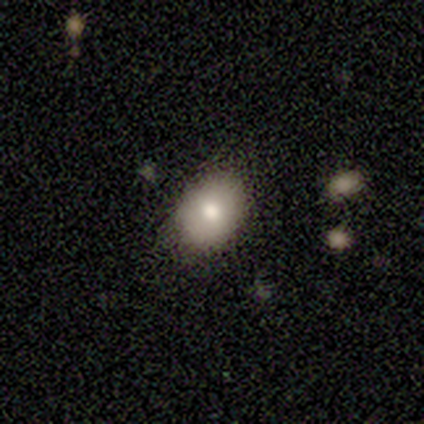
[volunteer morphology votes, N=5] Volunteers were most divided on "smooth or featured": smooth: 60%, featured or disk: 40%, star or artifact: 0%. More confident: how rounded — in between (67%); merging — none (60%).